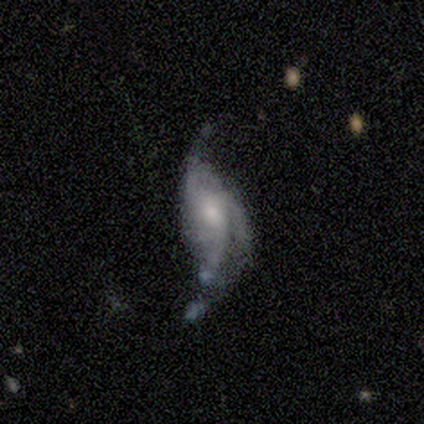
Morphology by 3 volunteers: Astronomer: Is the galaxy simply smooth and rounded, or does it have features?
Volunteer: featured or disk — 67%.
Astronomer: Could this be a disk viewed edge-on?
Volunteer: yes — 50%, tied with no at 50%.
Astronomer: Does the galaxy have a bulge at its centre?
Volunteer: boxy — 100%.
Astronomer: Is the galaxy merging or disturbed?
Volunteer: none — 33%, tied with minor disturbance and major disturbance at 33%.